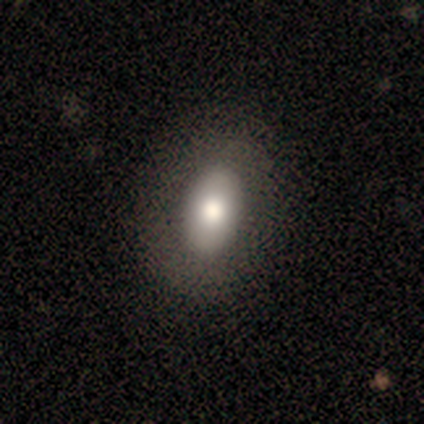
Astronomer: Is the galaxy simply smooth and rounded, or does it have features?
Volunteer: smooth — 80%.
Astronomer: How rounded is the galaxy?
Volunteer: in between — 75%.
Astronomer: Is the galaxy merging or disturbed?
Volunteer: none — 100%.